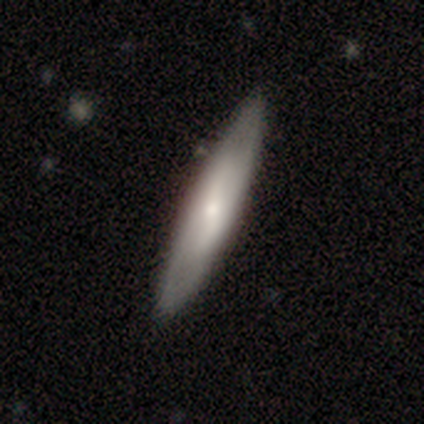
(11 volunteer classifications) This is possibly a smooth galaxy (55%). How rounded: clearly cigar-shaped (100%). Merging: clearly none (100%).